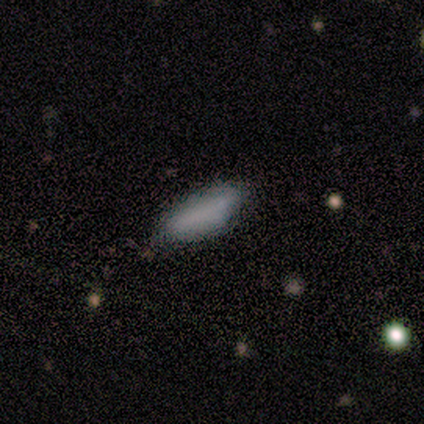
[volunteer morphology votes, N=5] A smooth galaxy with no disk features (80%) that is cigar-shaped (75%). Merging: none (80%).